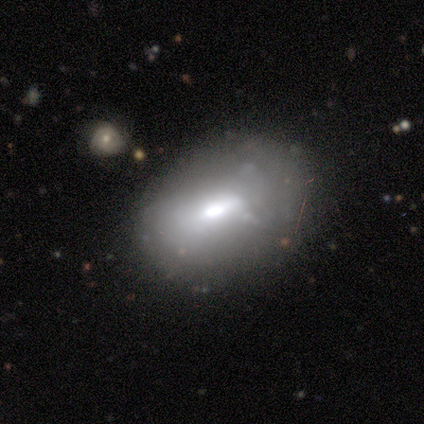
Smooth or featured: smooth — 50% (featured or disk — 40%)
How rounded: in between — 75% (round — 25%)
Merging: none — 58% (minor disturbance — 25%)